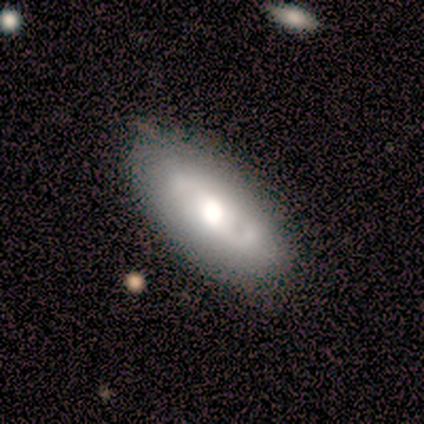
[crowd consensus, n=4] Q: Smooth or featured?
A: smooth (50%); tied with: featured or disk (50%)
Q: How rounded?
A: in between (100%)
Q: Merging?
A: none (75%); runner-up: minor disturbance (25%)